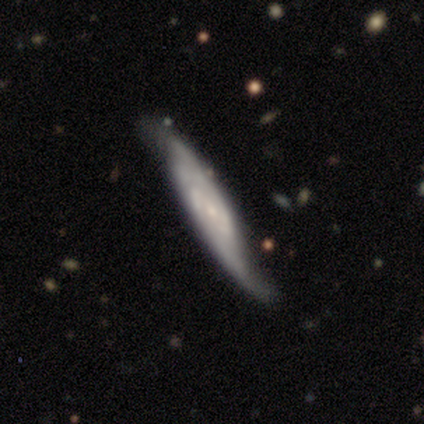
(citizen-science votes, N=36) Smooth or featured? 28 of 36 (78%) said featured or disk. Edge-on disk? 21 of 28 (75%) said no. Bar? 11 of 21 (52%) said no. Spiral arms? 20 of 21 (95%) said yes. Spiral winding? 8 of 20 (40%, tied with loose) said medium. Spiral arm count? 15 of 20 (75%) said 2. Bulge size? 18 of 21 (86%) said small. Merging? 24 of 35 (69%) said none.